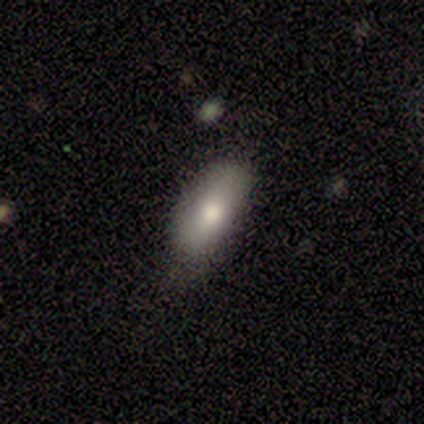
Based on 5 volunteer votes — Smooth or featured? smooth (80%)
How rounded? in between (100%)
Merging? none (60%)